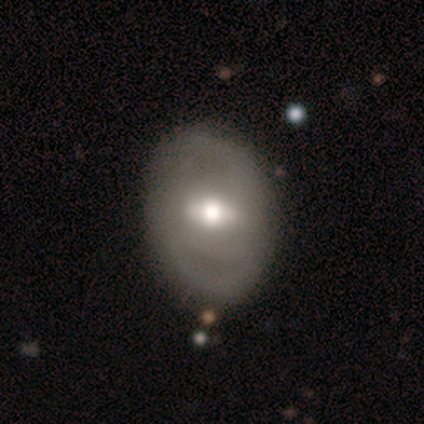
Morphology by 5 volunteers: A featured or disk galaxy (100%) with a strong bar (40%, tied with weak), no spiral arms (80%) and a moderate central bulge (80%).

Vote fractions:
- Smooth or featured? featured or disk: 100% / smooth: 0% / star or artifact: 0%
- Edge-on disk? no: 100% / yes: 0%
- Bar? strong: 40% (tied) / weak: 40% (tied) / no: 20%
- Spiral arms? no: 80% / yes: 20%
- Bulge size? moderate: 80% / dominant: 20% / large: 0% / small: 0% / none: 0%
- Merging? none: 80% / minor disturbance: 20% / major disturbance: 0% / merger: 0%